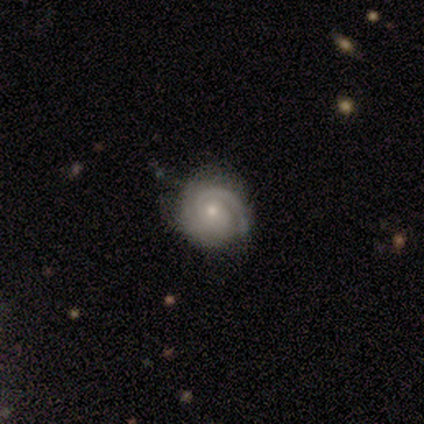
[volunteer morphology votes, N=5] featured or disk 80%, star or artifact 20%, smooth 0%. Down the decision tree: edge-on disk — no (75%); bar — no (100%); spiral arms — yes (100%); spiral arm count — 1 (100%); spiral winding — tight (100%); bulge size — small (100%); merging — none (100%).